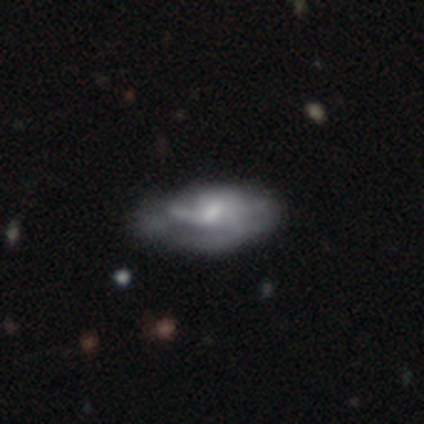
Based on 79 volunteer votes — Overall: featured or disk (62%; smooth 34%). Edge-on disk: no (96%). Bar: weak (47%; no 45%). Spiral arms: yes (72%). Spiral arm count: can't tell (62%). Spiral winding: medium (41%, tied with loose). Bulge size: small (47%; moderate 38%). Merging: none (21%; minor disturbance 18%).